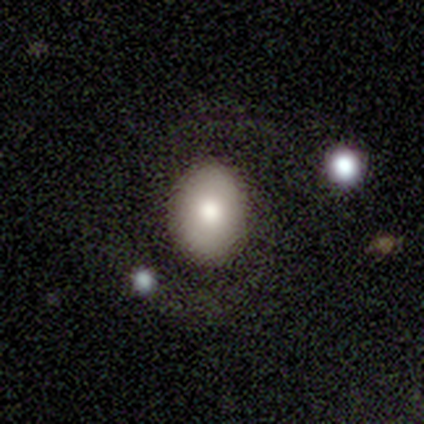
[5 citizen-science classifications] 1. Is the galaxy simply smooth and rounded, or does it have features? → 80% smooth, 20% featured or disk, 0% star or artifact.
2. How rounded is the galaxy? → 100% in between, 0% round, 0% cigar-shaped.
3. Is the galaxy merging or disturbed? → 100% none, 0% minor disturbance, 0% major disturbance, 0% merger.